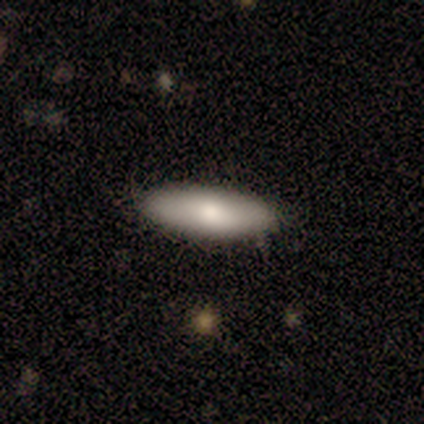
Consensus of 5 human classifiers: Morphology: type=smooth (80%); roundness=in between (50%, tied with cigar-shaped); merging=none (60%).